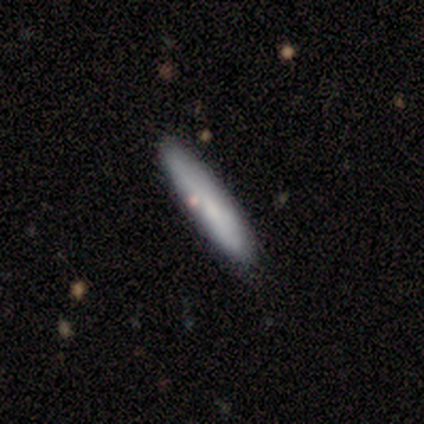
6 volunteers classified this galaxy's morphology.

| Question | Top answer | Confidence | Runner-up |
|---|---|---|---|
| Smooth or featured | smooth | 100% | — |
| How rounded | cigar-shaped | 100% | — |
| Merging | none | 83% | minor disturbance (17%) |